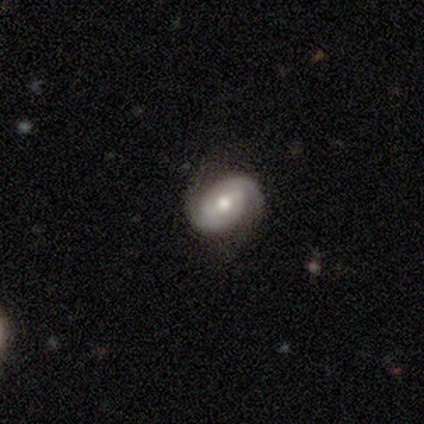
Q: Smooth or featured?
A: featured or disk (100%)
Q: Edge-on disk?
A: no (100%)
Q: Bar?
A: weak (60%); runner-up: no (40%)
Q: Spiral arms?
A: yes (100%)
Q: Spiral winding?
A: tight (60%); runner-up: medium (40%)
Q: Spiral arm count?
A: 2 (100%)
Q: Bulge size?
A: moderate (80%); runner-up: small (20%)
Q: Merging?
A: none (80%); runner-up: minor disturbance (20%)